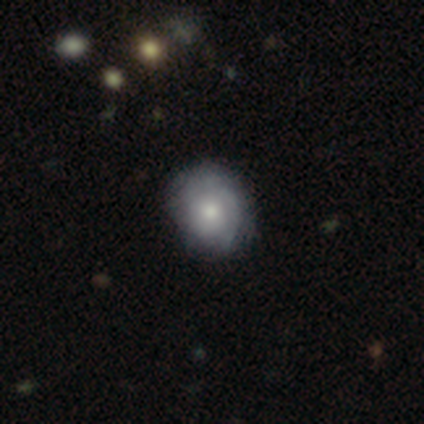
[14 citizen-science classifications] Volunteers were most divided on "spiral winding": medium: 57%, tight: 43%, loose: 0%. More confident: edge-on disk — no (100%); bar — no (100%); merging — none (79%); smooth or featured — featured or disk (71%); spiral arms — yes (70%); bulge size — moderate (60%); spiral arm count — can't tell (57%).